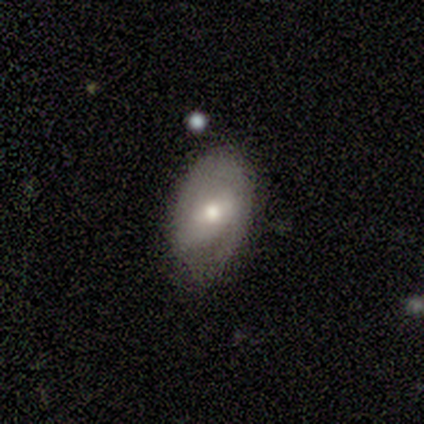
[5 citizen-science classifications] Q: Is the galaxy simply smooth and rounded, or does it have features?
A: smooth — 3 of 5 (60%).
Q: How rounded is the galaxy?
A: in between — 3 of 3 (100%).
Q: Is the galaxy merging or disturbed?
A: none — 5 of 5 (100%).